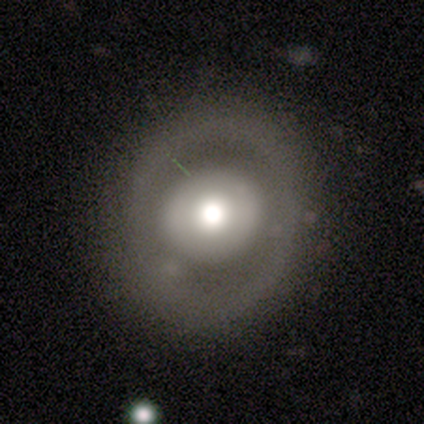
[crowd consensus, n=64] Volunteers were most divided on "smooth or featured": smooth: 50%, featured or disk: 45%, star or artifact: 5%. More confident: how rounded — round (91%); merging — none (56%).